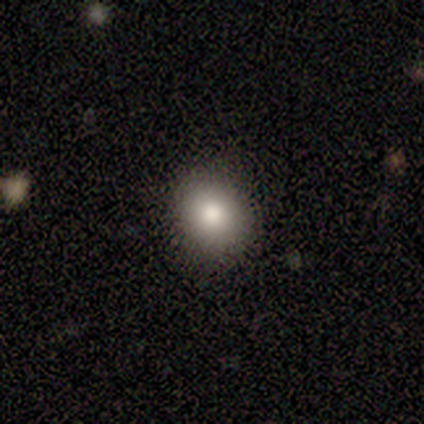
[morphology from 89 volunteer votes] A smooth galaxy with no disk features (84%) that is round (81%). Merging: none (90%).